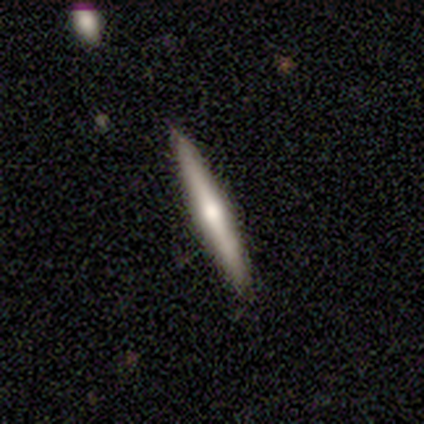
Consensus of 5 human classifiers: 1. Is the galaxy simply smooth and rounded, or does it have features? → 100% featured or disk, 0% smooth, 0% star or artifact.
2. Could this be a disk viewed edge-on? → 100% yes, 0% no.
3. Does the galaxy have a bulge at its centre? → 80% rounded, 20% none, 0% boxy.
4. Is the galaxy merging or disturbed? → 80% none, 20% minor disturbance, 0% major disturbance, 0% merger.